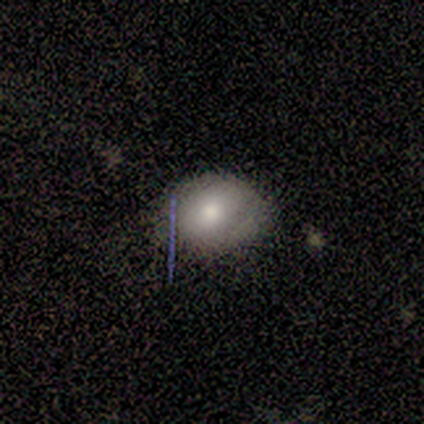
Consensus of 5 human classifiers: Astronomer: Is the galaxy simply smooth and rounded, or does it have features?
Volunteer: smooth — 60% (runner-up: featured or disk, 40%).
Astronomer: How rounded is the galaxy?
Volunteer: in between — 67%.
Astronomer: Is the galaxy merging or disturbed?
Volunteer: none — 80%.